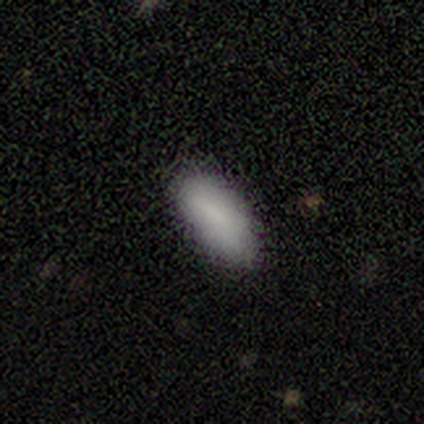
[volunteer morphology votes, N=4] smooth 100%, featured or disk 0%, star or artifact 0%. Down the decision tree: how rounded — in between (75%); merging — none (50%, tied with minor disturbance).